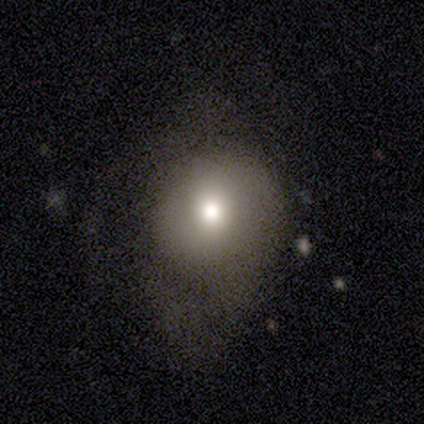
This appears to be a smooth galaxy with no disk features (65%) that is round (83%). Merging: none (42%).